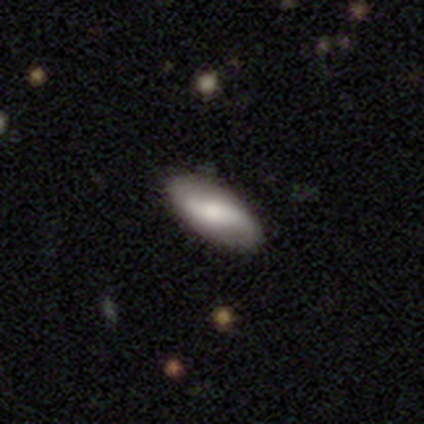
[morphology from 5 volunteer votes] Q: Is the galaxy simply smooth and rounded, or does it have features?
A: featured or disk — 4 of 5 (80%).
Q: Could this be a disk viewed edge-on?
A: yes — 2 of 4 (50%, tied with no).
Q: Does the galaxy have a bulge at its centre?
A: none — 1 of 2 (50%, tied with rounded).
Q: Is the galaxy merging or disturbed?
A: none — 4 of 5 (80%).